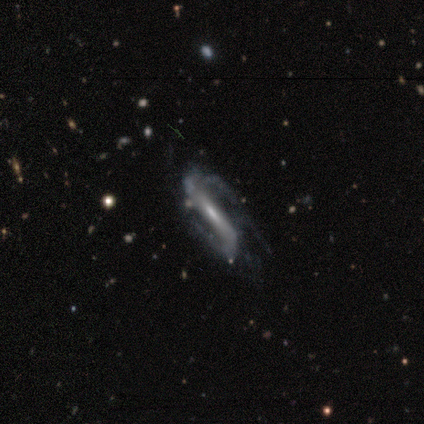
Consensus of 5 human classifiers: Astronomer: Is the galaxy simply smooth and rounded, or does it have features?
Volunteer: featured or disk — 60% (runner-up: star or artifact, 40%).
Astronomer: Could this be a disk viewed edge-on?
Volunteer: yes — 67%.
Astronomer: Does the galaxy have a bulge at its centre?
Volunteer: none — 50%, tied with rounded at 50%.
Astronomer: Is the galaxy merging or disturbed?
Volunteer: minor disturbance — 33%, tied with major disturbance and merger at 33%.